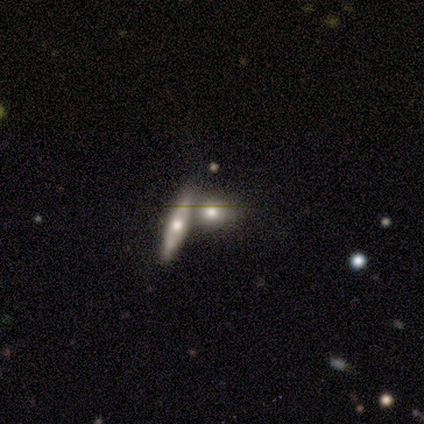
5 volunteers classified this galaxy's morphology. Overall: smooth (60%; featured or disk 40%). How rounded: cigar-shaped (100%). Merging: merger (60%; none 40%).